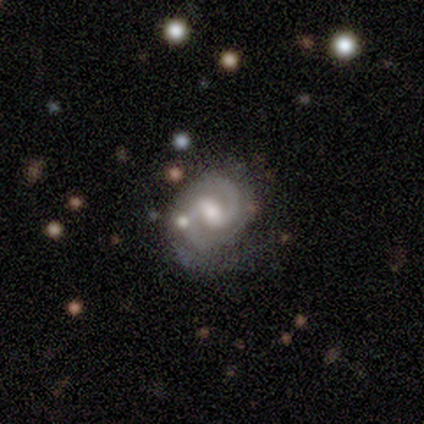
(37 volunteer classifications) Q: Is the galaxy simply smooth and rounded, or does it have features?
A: featured or disk — 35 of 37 (95%).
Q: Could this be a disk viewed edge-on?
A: no — 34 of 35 (97%).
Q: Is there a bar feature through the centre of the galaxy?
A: weak — 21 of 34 (62%).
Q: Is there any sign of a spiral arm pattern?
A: yes — 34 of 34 (100%).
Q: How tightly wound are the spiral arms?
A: tight — 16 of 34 (47%, tied with medium).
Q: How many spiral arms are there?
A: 2 — 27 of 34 (79%).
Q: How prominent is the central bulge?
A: moderate — 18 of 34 (53%).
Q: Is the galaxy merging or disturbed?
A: none — 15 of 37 (41%).